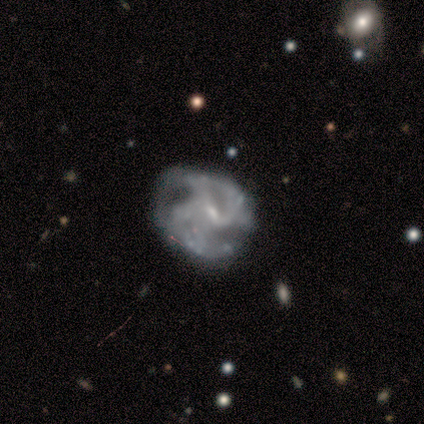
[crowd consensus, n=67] A featured or disk galaxy (88%) with a weak bar (64%), 3 (40%) medium (54%) spiral arms (85%) and a small central bulge (61%). Merging: none (44%).